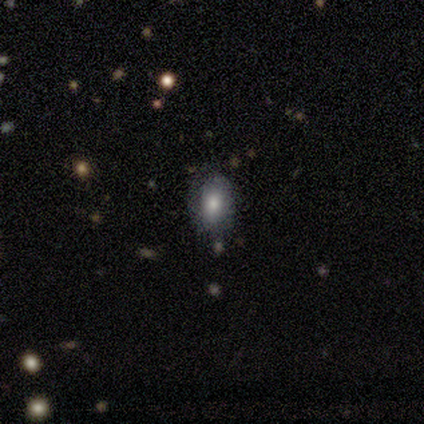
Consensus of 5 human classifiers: Morphology: type=smooth (100%); roundness=in between (60%); merging=none (100%).